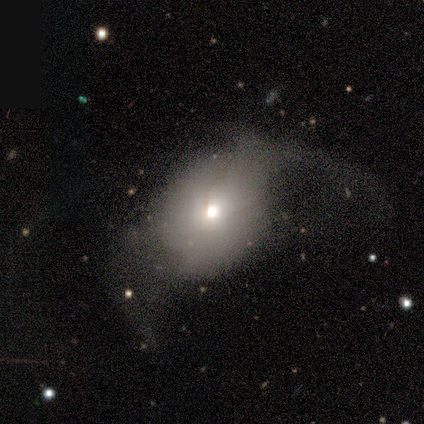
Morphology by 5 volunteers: A smooth galaxy with no disk features (80%) that is round (50%, tied with in between). Merging: major disturbance (80%).